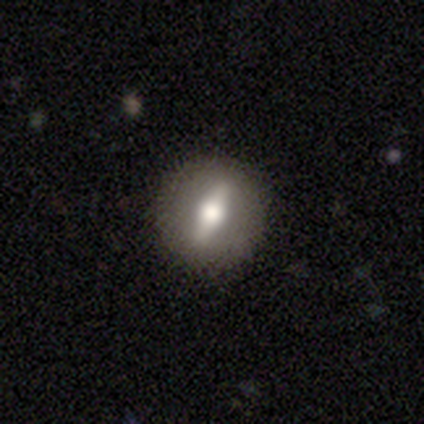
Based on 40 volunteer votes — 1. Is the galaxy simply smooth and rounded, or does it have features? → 68% featured or disk, 30% smooth, 2% star or artifact.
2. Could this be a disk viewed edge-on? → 59% no, 41% yes.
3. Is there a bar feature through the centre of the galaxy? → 62% strong, 19% weak, 19% no.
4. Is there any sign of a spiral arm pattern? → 88% no, 12% yes.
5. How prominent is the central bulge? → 62% moderate, 19% large, 12% none, 6% dominant, 0% small.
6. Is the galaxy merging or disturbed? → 90% none, 8% minor disturbance, 3% major disturbance, 0% merger.